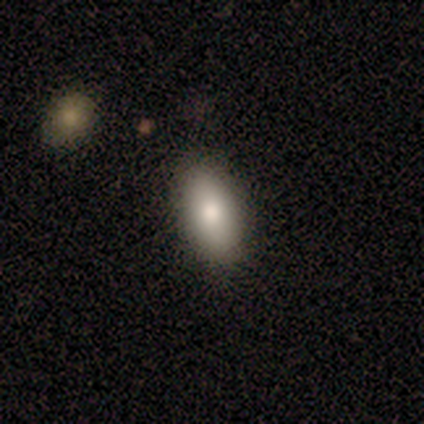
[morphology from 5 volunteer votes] This is clearly a smooth galaxy (80%). How rounded: likely in between (75%). Merging: likely none (75%).